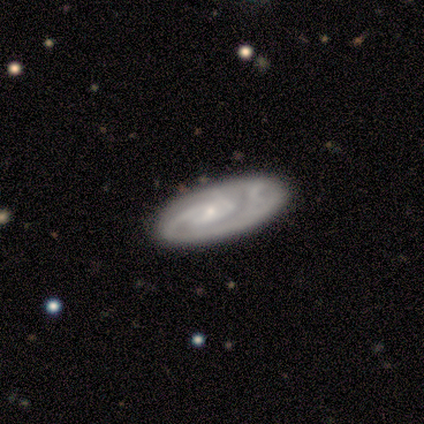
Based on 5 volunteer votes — Volunteers were most divided on "spiral winding" (2-way tie): tight: 40%, medium: 40%, loose: 20%; "spiral arm count" (2-way tie): 2: 40%, can't tell: 40%, 3: 20%, 1: 0%, 4: 0%, more than 4: 0%. More confident: smooth or featured — featured or disk (100%); edge-on disk — no (100%); spiral arms — yes (100%); bulge size — small (100%); bar — no (80%); merging — none (80%).